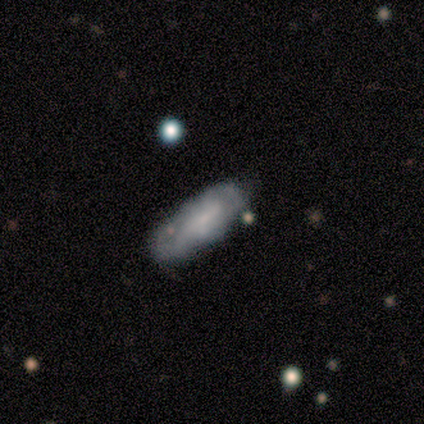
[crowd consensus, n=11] Volunteers were most divided on "smooth or featured": smooth: 55%, featured or disk: 36%, star or artifact: 9%. More confident: merging — none (90%); how rounded — in between (67%).